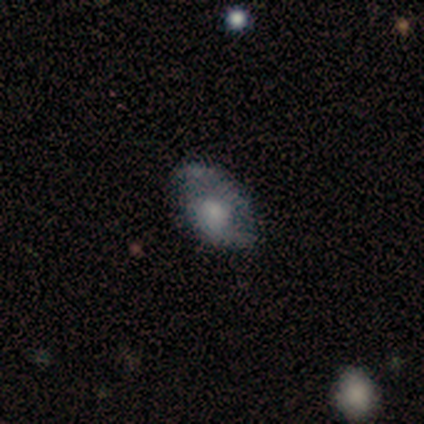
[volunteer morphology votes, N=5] This is likely a smooth galaxy (60%). How rounded: clearly in between (100%). Merging: clearly none (80%).